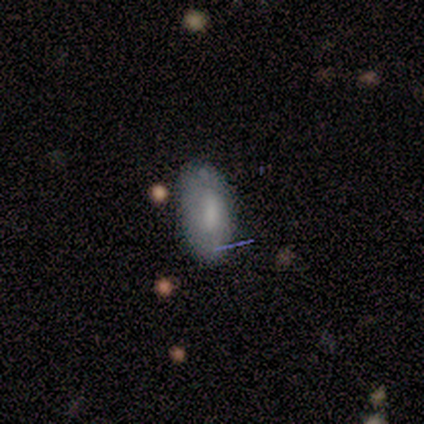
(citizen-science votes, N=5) A smooth galaxy with no disk features (60%) that is in between round and cigar-shaped (100%).

Vote fractions:
- Smooth or featured? smooth: 60% / featured or disk: 40% / star or artifact: 0%
- How rounded? in between: 100% / round: 0% / cigar-shaped: 0%
- Merging? none: 100% / minor disturbance: 0% / major disturbance: 0% / merger: 0%